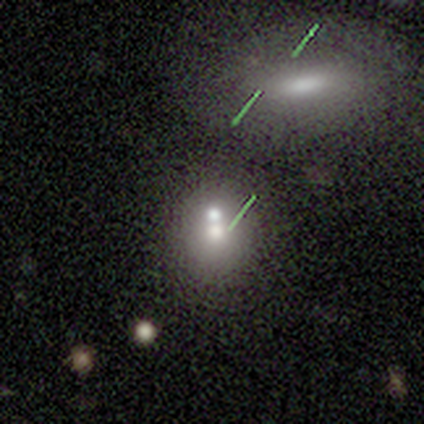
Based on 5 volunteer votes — Overall: smooth (60%; star or artifact 40%). How rounded: round (67%; in between 33%). Merging: merger (67%; none 33%).